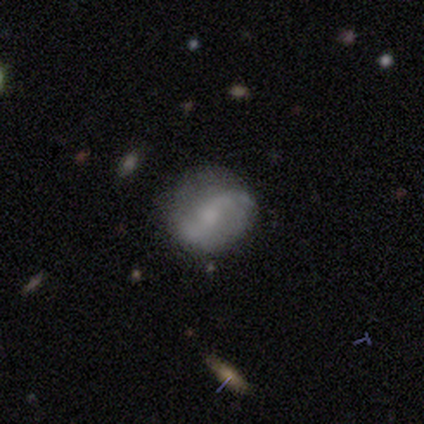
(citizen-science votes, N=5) Overall: featured or disk (80%). Edge-on disk: no (100%). Bar: weak (50%, tied with no). Spiral arms: yes (100%). Spiral arm count: 2 (100%). Spiral winding: loose (75%). Bulge size: moderate (50%, tied with small). Merging: none (60%; minor disturbance 40%).